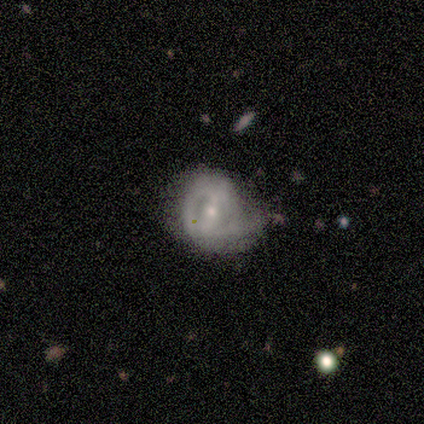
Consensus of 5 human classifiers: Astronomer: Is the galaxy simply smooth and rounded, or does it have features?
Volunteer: featured or disk — 80%.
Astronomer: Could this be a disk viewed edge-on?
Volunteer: no — 100%.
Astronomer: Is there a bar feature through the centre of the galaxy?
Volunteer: strong — 75%.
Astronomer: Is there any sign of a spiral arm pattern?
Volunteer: yes — 75%.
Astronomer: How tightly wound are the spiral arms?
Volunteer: tight — 67%.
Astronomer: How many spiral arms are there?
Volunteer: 1 — 67%.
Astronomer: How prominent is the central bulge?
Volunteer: small — 75%.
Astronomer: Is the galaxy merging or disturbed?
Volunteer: minor disturbance — 40%, tied with major disturbance at 40%.